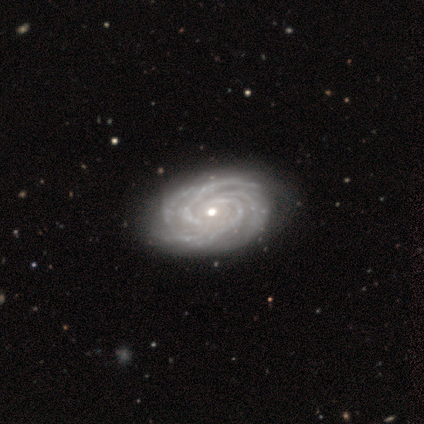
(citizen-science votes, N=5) smooth-or-featured: featured or disk: 100% | smooth: 0% | star or artifact: 0%
  disk-edge-on: no: 100% | yes: 0%
    bar: no: 100% | strong: 0% | weak: 0%
    has-spiral-arms: yes: 100% | no: 0%
      spiral-winding: tight: 60% | medium: 20% | loose: 20%
      spiral-arm-count: 4: 60% | 2: 20% | 3: 20% | 1: 0% | more than 4: 0% | can't tell: 0%
    bulge-size: moderate: 60% | small: 40% | dominant: 0% | large: 0% | none: 0%
  merging: none: 60% | minor disturbance: 20% | major disturbance: 20% | merger: 0%